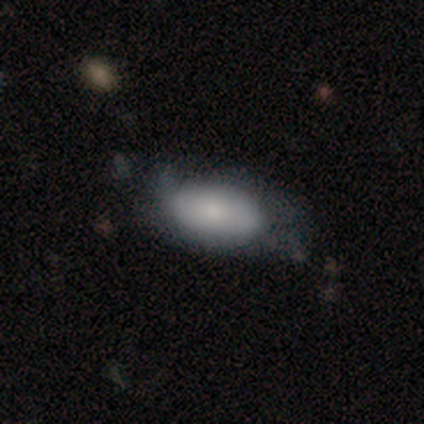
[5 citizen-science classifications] A smooth galaxy with no disk features (60%) that is in between round and cigar-shaped (100%). Merging: none (40%, tied with minor disturbance).